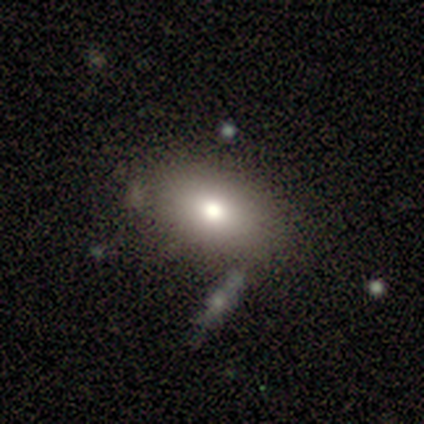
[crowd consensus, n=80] This appears to be a smooth galaxy with no disk features (70%) that is in between round and cigar-shaped (84%). Merging: none (36%).